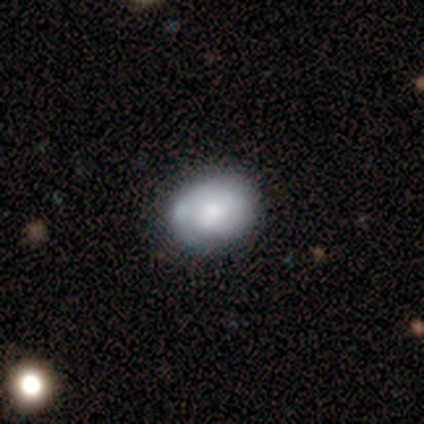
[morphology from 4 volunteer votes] Q: Smooth or featured?
A: smooth (50%); tied with: featured or disk (50%)
Q: How rounded?
A: in between (100%)
Q: Merging?
A: none (75%); runner-up: minor disturbance (25%)